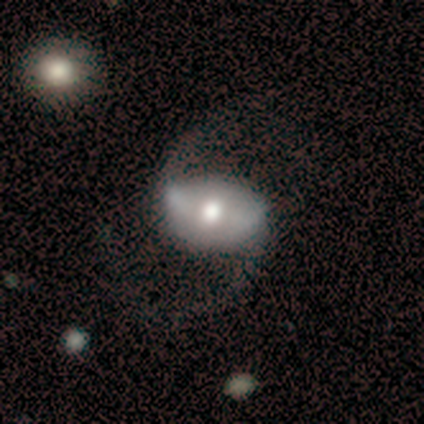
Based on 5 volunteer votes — smooth-or-featured: featured or disk: 100% | smooth: 0% | star or artifact: 0%
  disk-edge-on: no: 100% | yes: 0%
    bar: strong: 60% | weak: 20% | no: 20%
    has-spiral-arms: yes: 100% | no: 0%
      spiral-winding: loose: 100% | tight: 0% | medium: 0%
      spiral-arm-count: 2: 100% | 1: 0% | 3: 0% | 4: 0% | more than 4: 0% | can't tell: 0%
    bulge-size: moderate: 80% | small: 20% | dominant: 0% | large: 0% | none: 0%
  merging: none: 80% | minor disturbance: 20% | major disturbance: 0% | merger: 0%